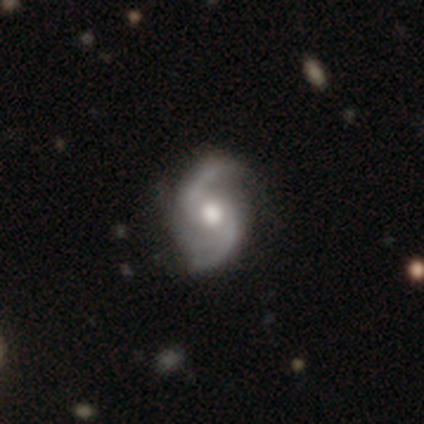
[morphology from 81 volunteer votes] Q: Smooth or featured?
A: featured or disk (94%); runner-up: star or artifact (5%)
Q: Edge-on disk?
A: no (99%); runner-up: yes (1%)
Q: Bar?
A: no (65%); runner-up: weak (27%)
Q: Spiral arms?
A: yes (95%); runner-up: no (5%)
Q: Spiral winding?
A: loose (49%); runner-up: medium (46%)
Q: Spiral arm count?
A: 2 (77%); runner-up: 3 (20%)
Q: Bulge size?
A: moderate (64%); runner-up: large (32%)
Q: Merging?
A: none (25%); runner-up: minor disturbance (22%)